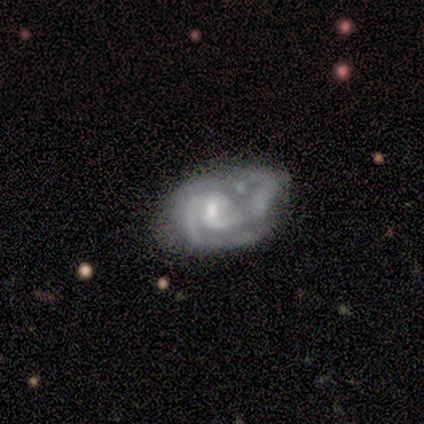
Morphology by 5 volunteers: type=featured or disk (100%); edge-on=no (80%); bar=strong (75%); spiral arms=yes (100%); winding=medium (50%, tied with loose); arm count=2 (100%); bulge=small (50%); merging=major disturbance (40%).